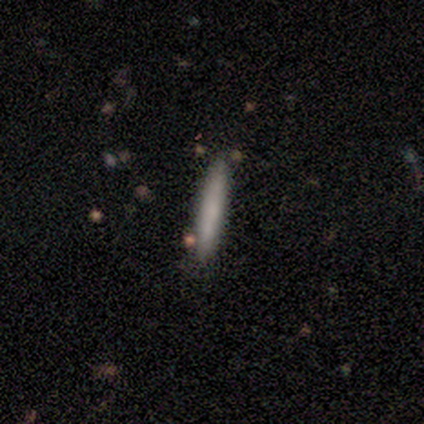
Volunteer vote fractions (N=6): Smooth or featured?
  - smooth: 67% *
  - featured or disk: 17%
  - star or artifact: 17%
How rounded?
  - cigar-shaped: 100% *
  - round: 0%
  - in between: 0%
Merging?
  - none: 80% *
  - merger: 20%
  - minor disturbance: 0%
  - major disturbance: 0%